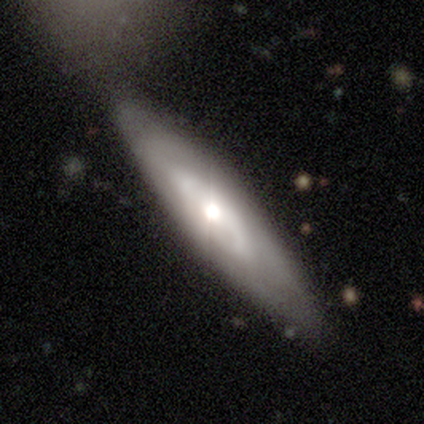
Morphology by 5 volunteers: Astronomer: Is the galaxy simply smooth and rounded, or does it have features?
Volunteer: featured or disk — 80%.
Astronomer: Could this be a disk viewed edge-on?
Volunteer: no — 100%.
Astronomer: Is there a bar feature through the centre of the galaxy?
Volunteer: no — 75%.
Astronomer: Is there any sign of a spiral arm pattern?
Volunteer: yes — 50%, tied with no at 50%.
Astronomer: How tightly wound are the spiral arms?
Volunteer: tight — 50%, tied with medium at 50%.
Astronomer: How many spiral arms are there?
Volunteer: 2 — 100%.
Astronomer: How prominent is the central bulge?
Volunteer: moderate — 75%.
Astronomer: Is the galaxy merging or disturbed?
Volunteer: none — 80%.